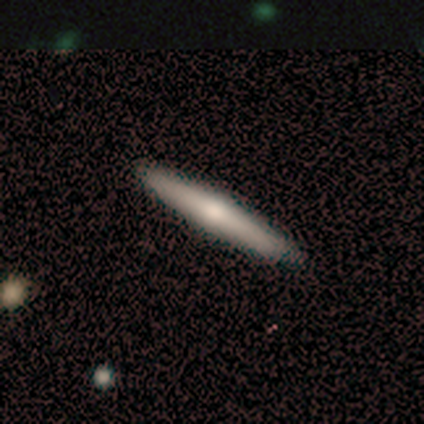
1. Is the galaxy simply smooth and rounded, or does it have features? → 80% smooth, 20% featured or disk, 0% star or artifact.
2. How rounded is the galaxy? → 100% cigar-shaped, 0% round, 0% in between.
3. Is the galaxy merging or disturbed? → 100% none, 0% minor disturbance, 0% major disturbance, 0% merger.